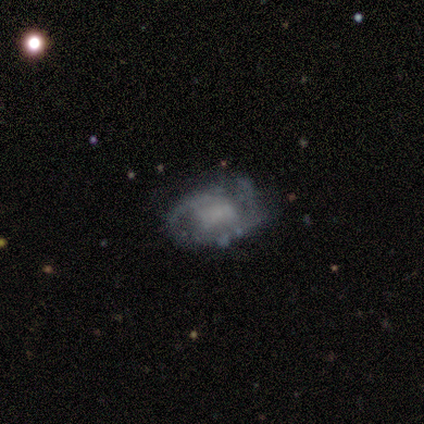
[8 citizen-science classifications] smooth-or-featured: featured or disk: 100% | smooth: 0% | star or artifact: 0%
  disk-edge-on: no: 100% | yes: 0%
    bar: no: 62% | strong: 25% | weak: 12%
    has-spiral-arms: yes: 75% | no: 25%
      spiral-winding: tight: 67% | medium: 33% | loose: 0%
      spiral-arm-count: 2: 33% (tied) | 3: 33% (tied) | can't tell: 33% (tied) | 1: 0% | 4: 0% | more than 4: 0%
    bulge-size: none: 62% | large: 25% | moderate: 12% | dominant: 0% | small: 0%
  merging: none: 50% (tied) | minor disturbance: 50% (tied) | major disturbance: 0% | merger: 0%